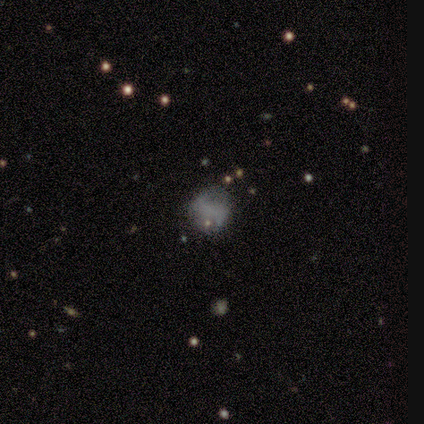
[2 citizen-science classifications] A featured or disk galaxy (100%) with a strong bar (50%, tied with no), 2 (100%) loose (100%) spiral arms (50%, tied with no) and no central bulge (100%).

Vote fractions:
- Smooth or featured? featured or disk: 100% / smooth: 0% / star or artifact: 0%
- Edge-on disk? no: 100% / yes: 0%
- Bar? strong: 50% (tied) / no: 50% (tied) / weak: 0%
- Spiral arms? yes: 50% (tied) / no: 50% (tied)
- Spiral winding? loose: 100% / tight: 0% / medium: 0%
- Spiral arm count? 2: 100% / 1: 0% / 3: 0% / 4: 0% / more than 4: 0% / can't tell: 0%
- Bulge size? none: 100% / dominant: 0% / large: 0% / moderate: 0% / small: 0%
- Merging? none: 50% (tied) / minor disturbance: 50% (tied) / major disturbance: 0% / merger: 0%